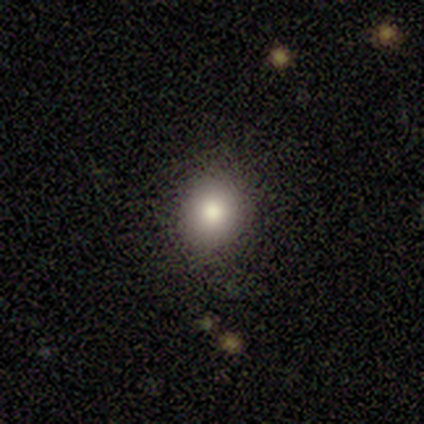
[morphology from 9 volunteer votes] Smooth or featured?
  - smooth: 100% *
  - featured or disk: 0%
  - star or artifact: 0%
How rounded?
  - round: 89% *
  - in between: 11%
  - cigar-shaped: 0%
Merging?
  - none: 100% *
  - minor disturbance: 0%
  - major disturbance: 0%
  - merger: 0%